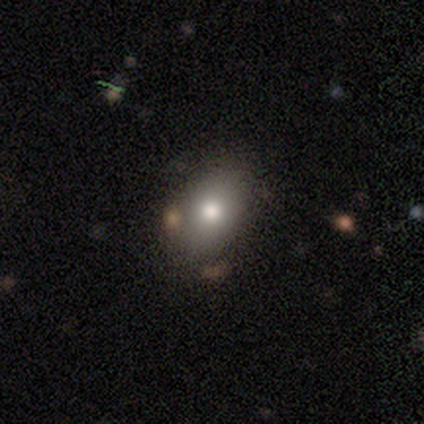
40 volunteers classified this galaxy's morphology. smooth-or-featured: smooth: 80% | featured or disk: 12% | star or artifact: 8%
  how-rounded: in between: 84% | round: 16% | cigar-shaped: 0%
  merging: none: 68% | minor disturbance: 8% | major disturbance: 0% | merger: 0%